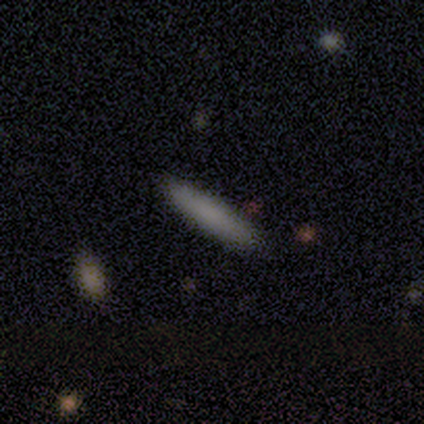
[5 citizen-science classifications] A smooth galaxy with no disk features (100%) that is cigar-shaped (100%). Merging: none (100%).